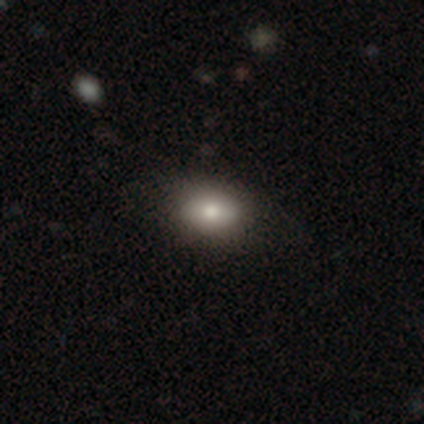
Smooth or featured? smooth (92%)
How rounded? in between (82%)
Merging? none (75%)